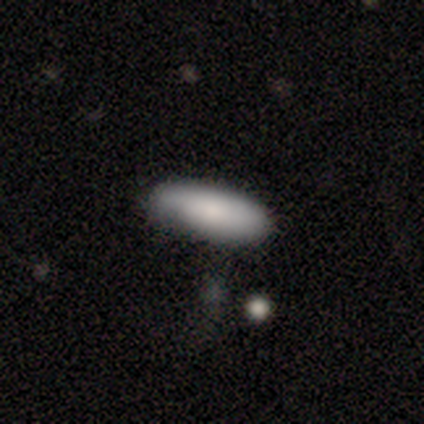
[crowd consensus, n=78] Smooth or featured?
  - smooth: 81% *
  - featured or disk: 15%
  - star or artifact: 4%
How rounded?
  - in between: 78% *
  - cigar-shaped: 22%
  - round: 0%
Merging?
  - none: 29% *
  - minor disturbance: 20%
  - merger: 1%
  - major disturbance: 0%